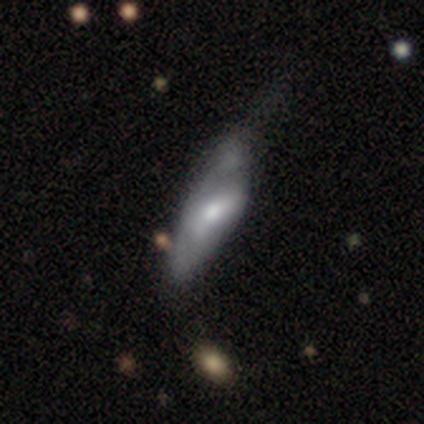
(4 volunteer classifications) A smooth galaxy with no disk features (75%) that is in between round and cigar-shaped (67%). Merging: major disturbance (50%).